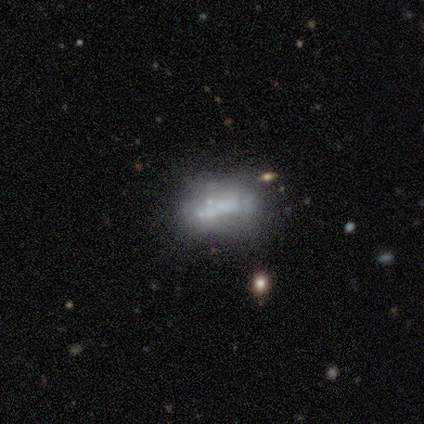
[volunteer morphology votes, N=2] This is possibly a featured or disk galaxy (50%, tied with star or artifact). It is clearly not viewed edge-on (100%). Bar: clearly no (100%). Spiral arm pattern: clearly no (100%). Central bulge: clearly none (100%). Merging: clearly none (100%).